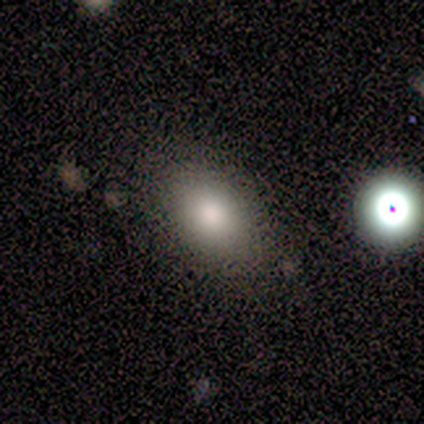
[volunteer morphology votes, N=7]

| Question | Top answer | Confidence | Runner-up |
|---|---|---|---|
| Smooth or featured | smooth | 86% | featured or disk (14%) |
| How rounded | in between | 100% | — |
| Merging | none | 86% | minor disturbance (14%) |